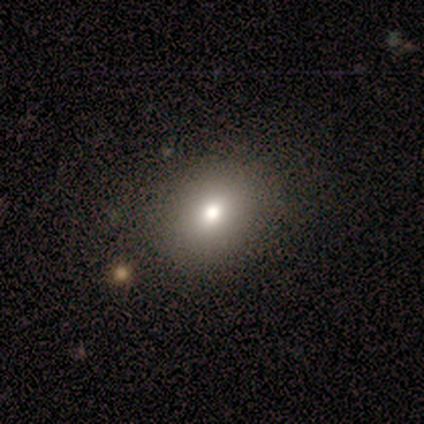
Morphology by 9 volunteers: smooth 67%, featured or disk 22%, star or artifact 11%. Down the decision tree: how rounded — round (67%); merging — none (100%).